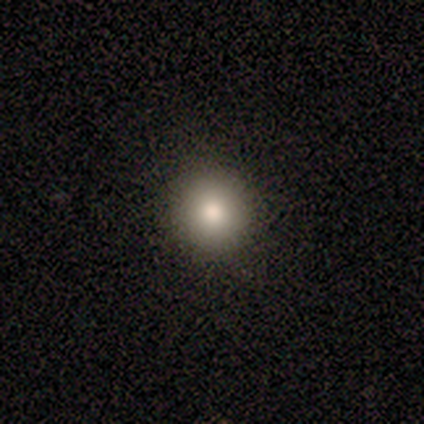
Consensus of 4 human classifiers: Consensus on every question: smooth or featured — smooth (100%); how rounded — round (100%); merging — none (100%).